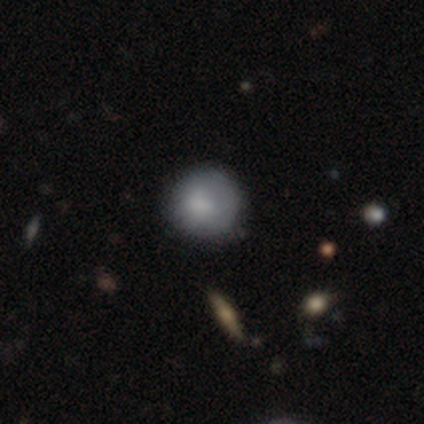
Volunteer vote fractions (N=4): smooth 100%, featured or disk 0%, star or artifact 0%. Down the decision tree: how rounded — round (100%); merging — none (50%).